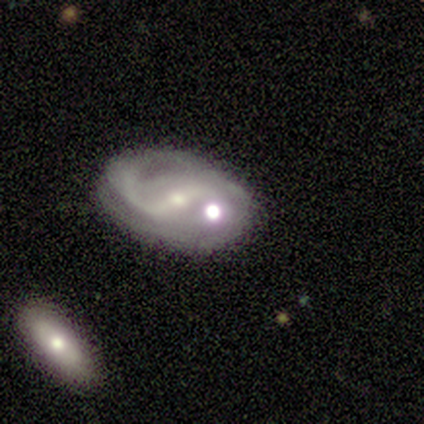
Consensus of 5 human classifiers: This appears to be a featured or disk galaxy (100%) with a strong bar (60%), 2 (75%) medium (75%) spiral arms (80%) and a small central bulge (80%). Merging: none (80%).